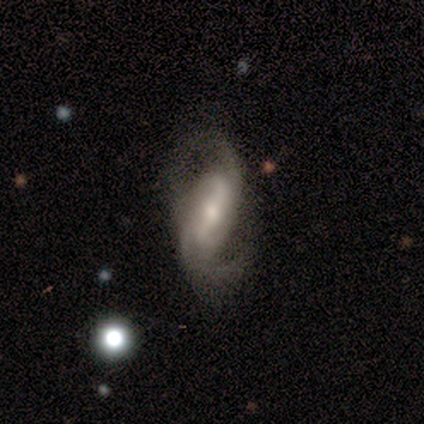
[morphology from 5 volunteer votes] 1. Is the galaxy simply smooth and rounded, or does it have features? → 80% featured or disk, 20% smooth, 0% star or artifact.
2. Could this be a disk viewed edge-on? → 100% no, 0% yes.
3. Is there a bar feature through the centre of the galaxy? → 75% strong, 25% weak, 0% no.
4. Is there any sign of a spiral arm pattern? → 100% yes, 0% no.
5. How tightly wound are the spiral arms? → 50% medium (tied), 50% loose (tied), 0% tight.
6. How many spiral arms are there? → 100% 2, 0% 1, 0% 3, 0% 4, 0% more than 4, 0% can't tell.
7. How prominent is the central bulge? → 50% moderate, 25% large, 25% small, 0% dominant, 0% none.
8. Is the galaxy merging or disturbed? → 40% none (tied), 40% major disturbance (tied), 20% minor disturbance, 0% merger.